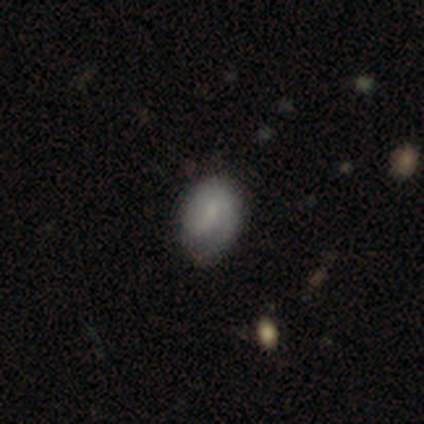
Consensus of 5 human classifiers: Volunteers were most divided on "smooth or featured": featured or disk: 60%, smooth: 40%, star or artifact: 0%. More confident: edge-on disk — no (100%); bar — no (100%); merging — none (80%); spiral arms — no (67%); bulge size — none (67%).